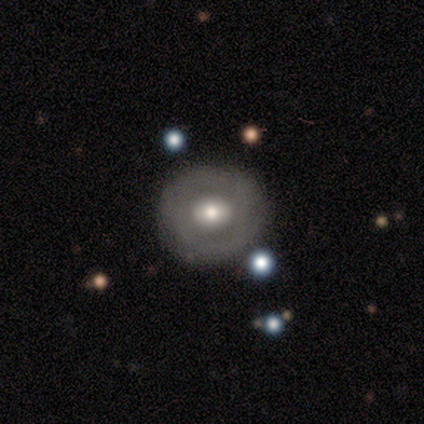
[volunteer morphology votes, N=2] Smooth or featured? smooth (50%, tied with featured or disk)
How rounded? round (100%)
Merging? none (100%)